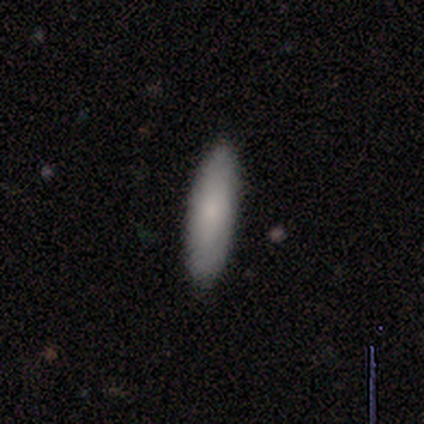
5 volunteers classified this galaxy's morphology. Volunteers were most divided on "how rounded": cigar-shaped: 80%, in between: 20%, round: 0%. More confident: smooth or featured — smooth (100%); merging — none (80%).